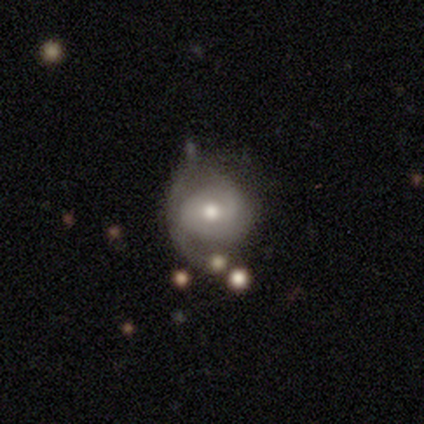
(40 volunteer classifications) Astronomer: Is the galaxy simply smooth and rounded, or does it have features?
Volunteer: featured or disk — 62%.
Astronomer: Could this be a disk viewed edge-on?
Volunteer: no — 96%.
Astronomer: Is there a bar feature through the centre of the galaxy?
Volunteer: no — 62%.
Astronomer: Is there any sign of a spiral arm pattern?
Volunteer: yes — 88%.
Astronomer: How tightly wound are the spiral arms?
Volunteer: medium — 48% (runner-up: tight, 33%).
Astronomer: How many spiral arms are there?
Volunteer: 2 — 62%.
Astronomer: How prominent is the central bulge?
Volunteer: moderate — 79%.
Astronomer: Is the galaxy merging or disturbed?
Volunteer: none — 37%, tied with minor disturbance at 37%.